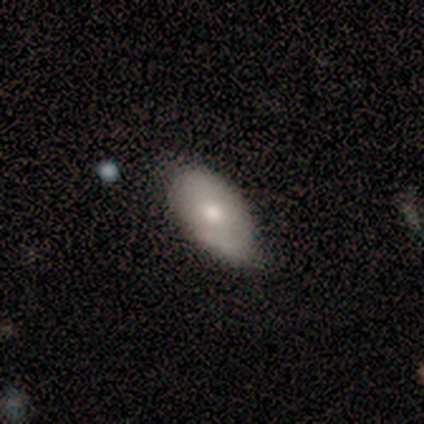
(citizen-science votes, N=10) smooth 60%, featured or disk 40%, star or artifact 0%. Down the decision tree: how rounded — in between (100%); merging — minor disturbance (60%).